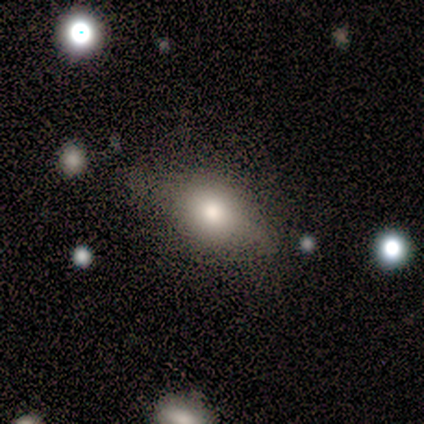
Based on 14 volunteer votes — This is clearly a smooth galaxy (86%). How rounded: possibly round (50%). Merging: likely none (71%).